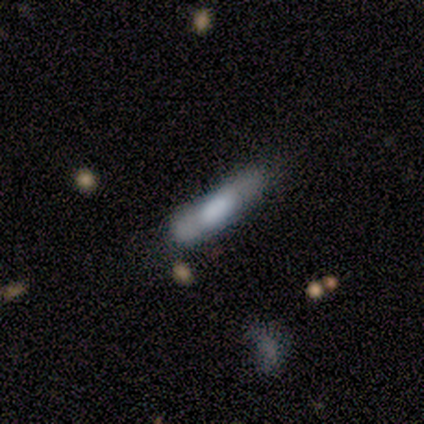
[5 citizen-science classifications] Smooth or featured?
  - smooth: 60% *
  - featured or disk: 40%
  - star or artifact: 0%
How rounded?
  - cigar-shaped: 100% *
  - round: 0%
  - in between: 0%
Merging?
  - minor disturbance: 60% *
  - none: 20%
  - major disturbance: 20%
  - merger: 0%